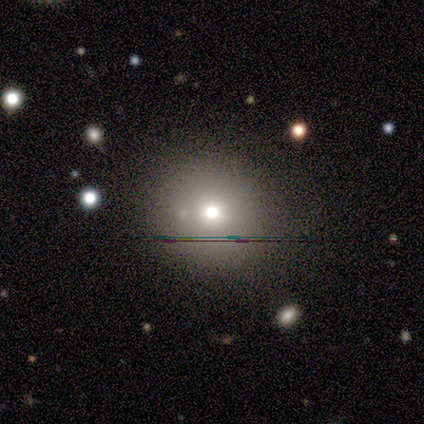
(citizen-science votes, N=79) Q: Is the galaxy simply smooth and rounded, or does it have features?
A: smooth — 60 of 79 (76%).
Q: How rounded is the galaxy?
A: round — 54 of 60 (90%).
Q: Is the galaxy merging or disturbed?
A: none — 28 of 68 (41%).